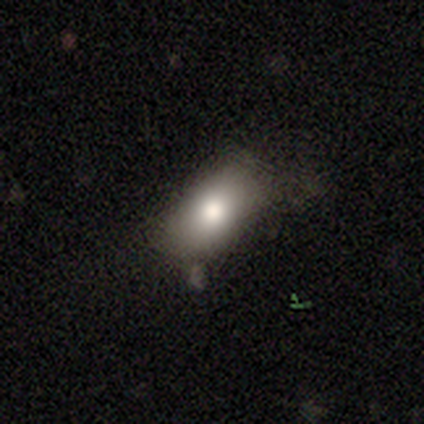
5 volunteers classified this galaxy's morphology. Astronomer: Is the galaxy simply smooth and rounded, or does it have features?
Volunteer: smooth — 100%.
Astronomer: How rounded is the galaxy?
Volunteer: in between — 100%.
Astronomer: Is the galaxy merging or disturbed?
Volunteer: none — 40%, tied with minor disturbance at 40%.